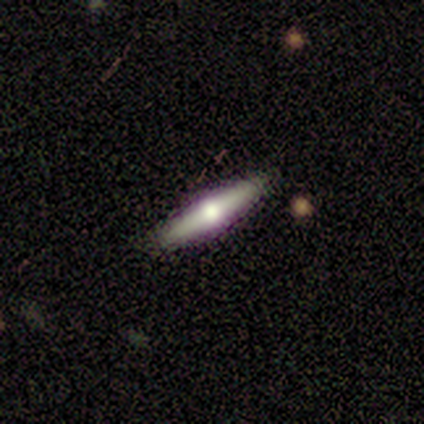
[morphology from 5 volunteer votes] A featured or disk galaxy (80%) viewed edge-on (100%) with a rounded central bulge (100%). Merging: none (80%).